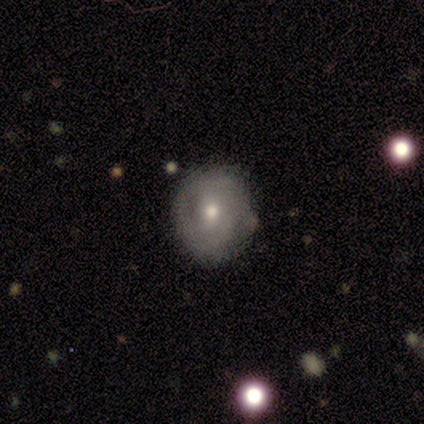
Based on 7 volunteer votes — A featured or disk galaxy (86%) with a weak bar (50%, tied with no), 2 (40%, tied with can't tell) medium (60%) spiral arms (83%) and a moderate central bulge (83%). Merging: none (57%).